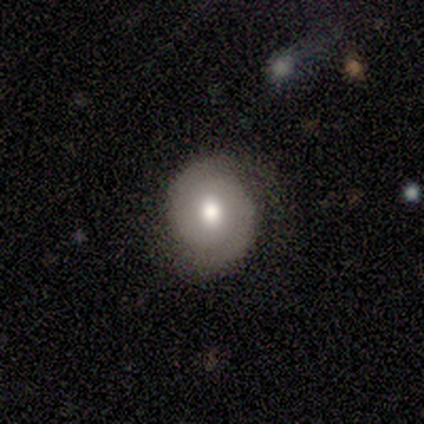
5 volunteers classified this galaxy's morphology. Smooth or featured? 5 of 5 (100%) said featured or disk. Edge-on disk? 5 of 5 (100%) said no. Bar? 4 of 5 (80%) said no. Spiral arms? 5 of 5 (100%) said yes. Spiral winding? 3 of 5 (60%) said tight. Spiral arm count? 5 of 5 (100%) said 2. Bulge size? 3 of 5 (60%) said moderate. Merging? 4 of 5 (80%) said none.